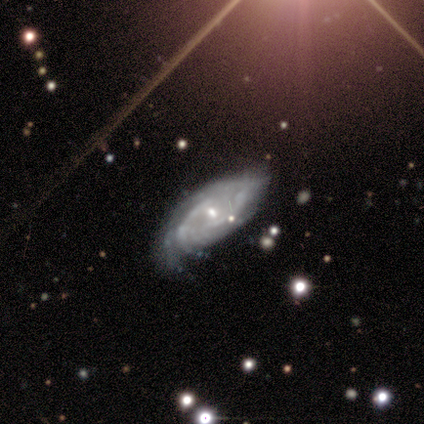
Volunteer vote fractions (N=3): Morphology: type=featured or disk (100%); edge-on=no (100%); bar=no (67%); spiral arms=yes (100%); winding=tight (100%); arm count=can't tell (67%); bulge=small (100%); merging=none (67%).